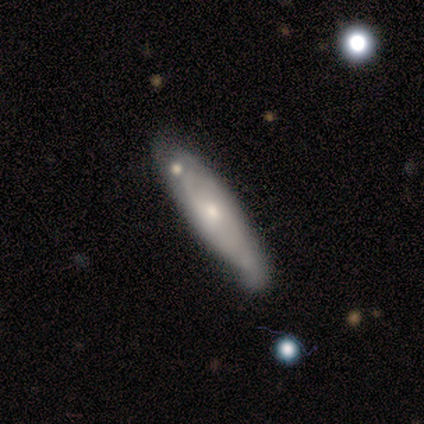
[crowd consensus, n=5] Smooth or featured?
  - smooth: 60% *
  - featured or disk: 40%
  - star or artifact: 0%
How rounded?
  - cigar-shaped: 100% *
  - round: 0%
  - in between: 0%
Merging?
  - minor disturbance: 80% *
  - none: 20%
  - major disturbance: 0%
  - merger: 0%